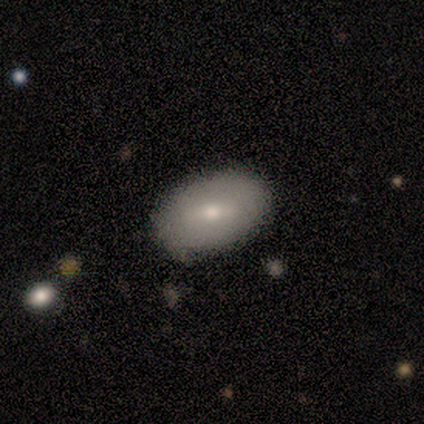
smooth-or-featured: smooth: 57% | featured or disk: 29% | star or artifact: 14%
  how-rounded: in between: 100% | round: 0% | cigar-shaped: 0%
  merging: none: 100% | minor disturbance: 0% | major disturbance: 0% | merger: 0%